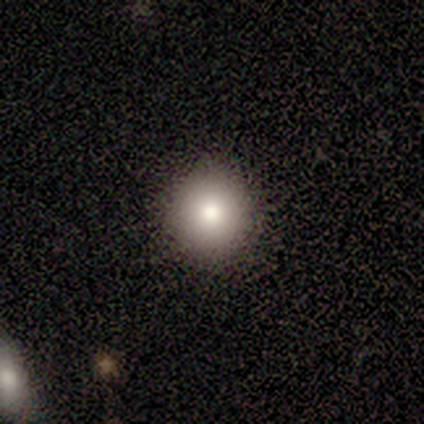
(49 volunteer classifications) smooth_or_featured: smooth (p=0.90) [alt: star or artifact p=0.06]
how_rounded: round (p=0.91) [alt: in between p=0.09]
merging: none (p=0.91) [alt: minor disturbance p=0.04]